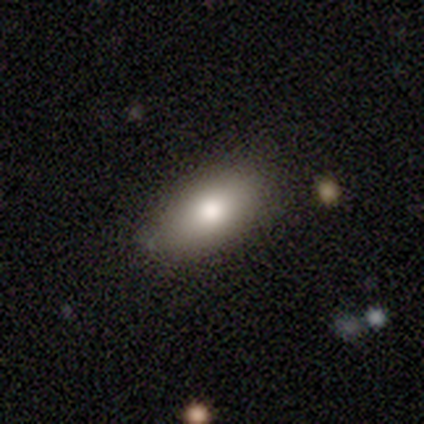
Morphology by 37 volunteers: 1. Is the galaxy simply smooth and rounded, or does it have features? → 84% smooth, 8% featured or disk, 8% star or artifact.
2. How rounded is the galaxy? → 87% in between, 6% round, 6% cigar-shaped.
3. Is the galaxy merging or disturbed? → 82% none, 9% major disturbance, 6% minor disturbance, 3% merger.